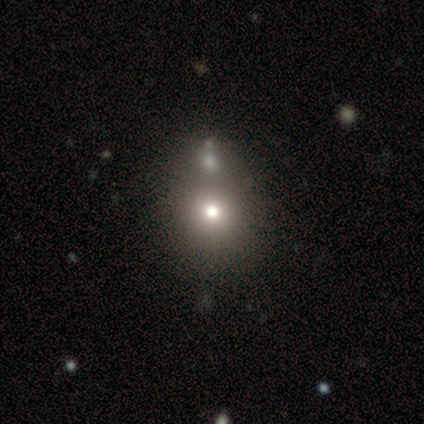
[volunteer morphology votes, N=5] smooth 60%, featured or disk 20%, star or artifact 20%. Down the decision tree: how rounded — round (67%); merging — none (50%).